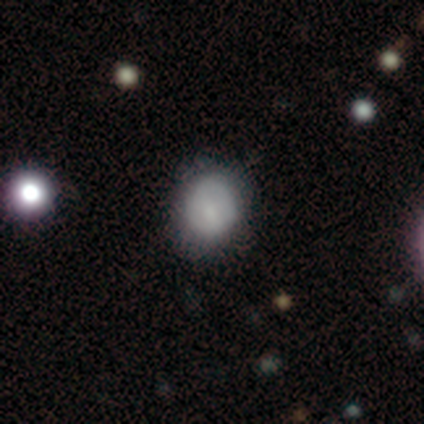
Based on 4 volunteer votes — Volunteers were most divided on "merging": minor disturbance: 50%, none: 25%, major disturbance: 25%, merger: 0%. More confident: smooth or featured — smooth (75%); how rounded — round (67%).